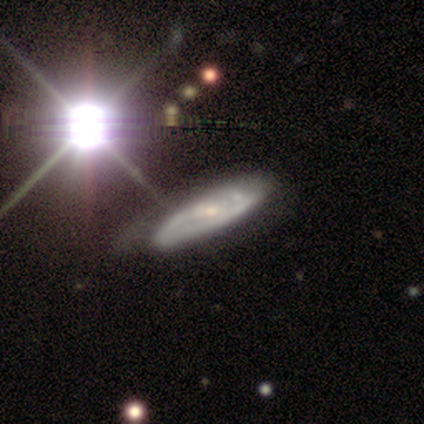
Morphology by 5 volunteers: This is clearly a featured or disk galaxy (100%). It is clearly not viewed edge-on (80%). Bar: possibly no (50%). Spiral arm pattern: likely yes (75%). Spiral arm count: likely can't tell (67%). Spiral winding: likely medium (67%). Central bulge: clearly small (100%). Merging: likely minor disturbance (60%).